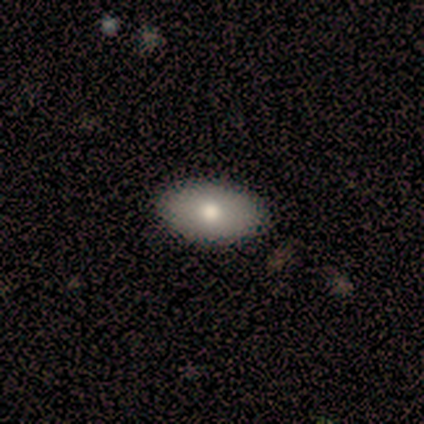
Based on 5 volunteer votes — Q: Smooth or featured?
A: smooth (100%)
Q: How rounded?
A: in between (100%)
Q: Merging?
A: none (100%)